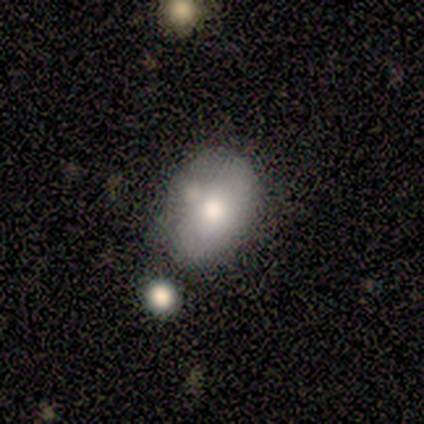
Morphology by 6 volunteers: type=smooth (83%); roundness=in between (60%); merging=none (67%).